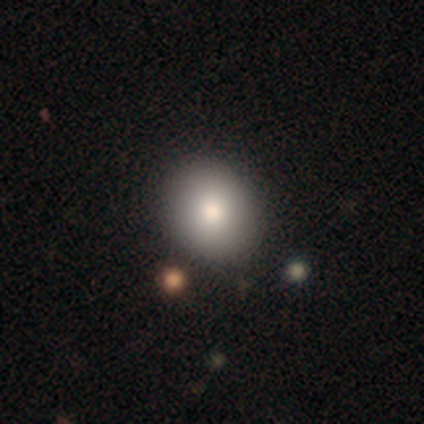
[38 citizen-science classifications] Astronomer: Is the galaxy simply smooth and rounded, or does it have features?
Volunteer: smooth — 89%.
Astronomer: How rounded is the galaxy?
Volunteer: round — 68%.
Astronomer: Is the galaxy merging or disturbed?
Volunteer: none — 95%.